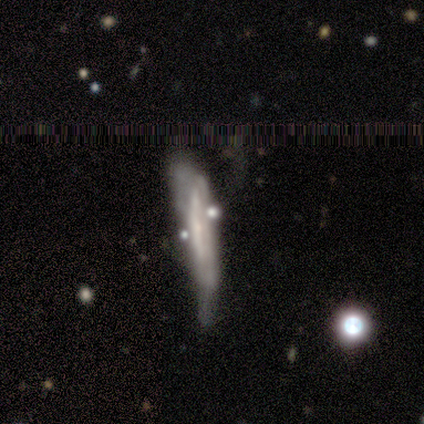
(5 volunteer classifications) Smooth or featured: featured or disk — 80% (smooth — 20%)
Edge-on disk: yes — 100%
Edge-on bulge: none — 75% (boxy — 25%)
Merging: merger — 60% (none — 20%)